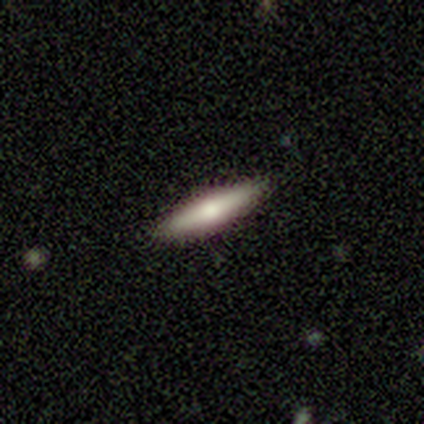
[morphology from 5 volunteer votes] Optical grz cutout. It shows a smooth galaxy with no disk features (60%) that is cigar-shaped (100%). Merging: none (100%).